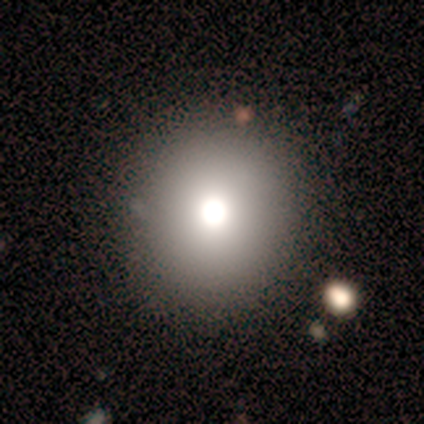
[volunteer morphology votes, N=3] This is clearly a smooth galaxy (100%). How rounded: likely round (67%). Merging: marginally none (33%, tied with minor disturbance and merger).